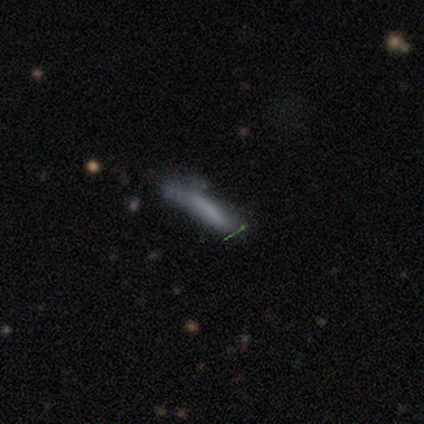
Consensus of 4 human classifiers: Smooth or featured? 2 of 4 (50%) said smooth. How rounded? 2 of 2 (100%) said cigar-shaped. Merging? 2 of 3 (67%) said none.